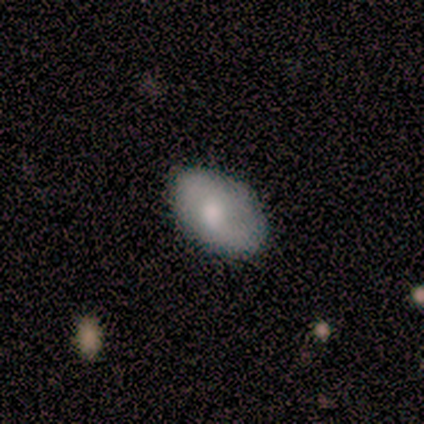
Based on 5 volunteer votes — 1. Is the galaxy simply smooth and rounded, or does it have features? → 40% smooth (tied), 40% featured or disk (tied), 20% star or artifact.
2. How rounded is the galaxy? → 100% in between, 0% round, 0% cigar-shaped.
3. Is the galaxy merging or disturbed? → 50% none (tied), 50% minor disturbance (tied), 0% major disturbance, 0% merger.